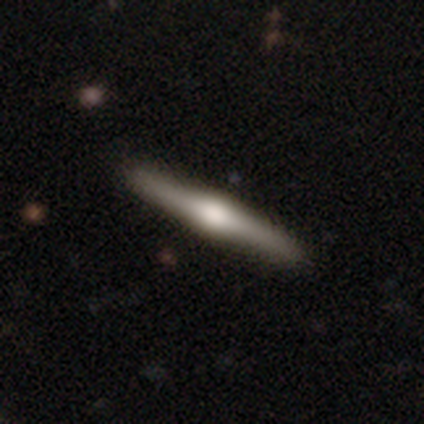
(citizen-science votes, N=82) featured or disk 79%, smooth 17%, star or artifact 4%. Down the decision tree: edge-on disk — yes (97%); edge-on bulge — rounded (92%); merging — none (84%).